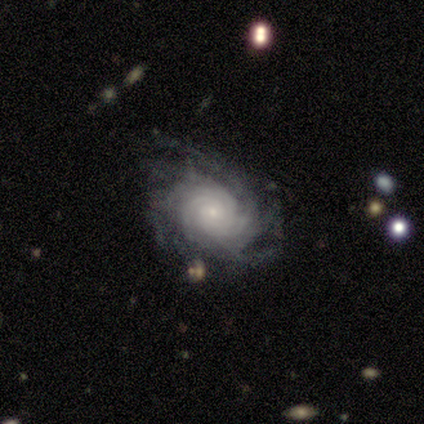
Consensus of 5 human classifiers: featured or disk 100%, smooth 0%, star or artifact 0%. Down the decision tree: edge-on disk — no (100%); bar — weak (40%, tied with no); spiral arms — yes (100%); spiral arm count — 2 (40%, tied with 4); spiral winding — tight (100%); bulge size — moderate (60%); merging — none (80%).